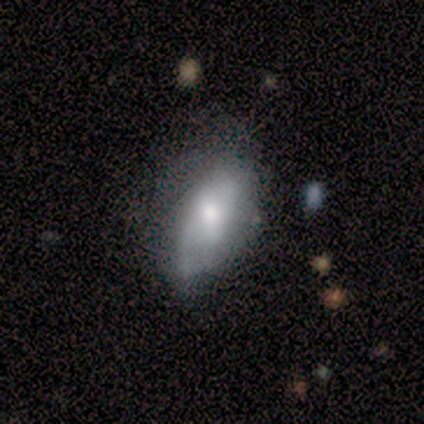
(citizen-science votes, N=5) Smooth or featured?
  - smooth: 80% *
  - featured or disk: 20%
  - star or artifact: 0%
How rounded?
  - in between: 75% *
  - round: 25%
  - cigar-shaped: 0%
Merging?
  - none: 60% *
  - minor disturbance: 40%
  - major disturbance: 0%
  - merger: 0%